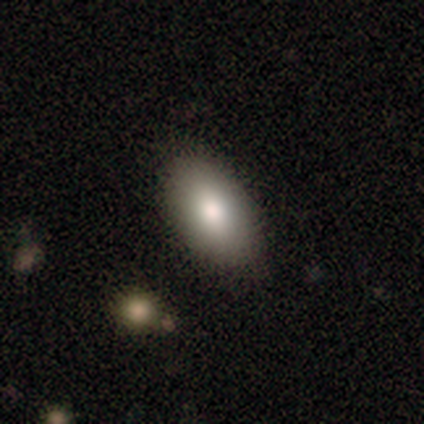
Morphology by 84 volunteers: This is likely a smooth galaxy (77%). How rounded: clearly in between (91%). Merging: clearly none (86%).